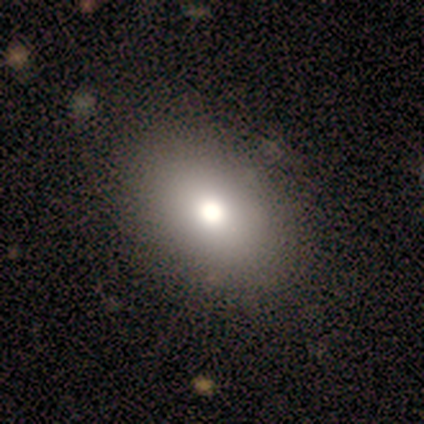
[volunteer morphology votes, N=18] smooth-or-featured: smooth: 94% | star or artifact: 6% | featured or disk: 0%
  how-rounded: in between: 94% | round: 6% | cigar-shaped: 0%
  merging: none: 88% | minor disturbance: 12% | major disturbance: 0% | merger: 0%